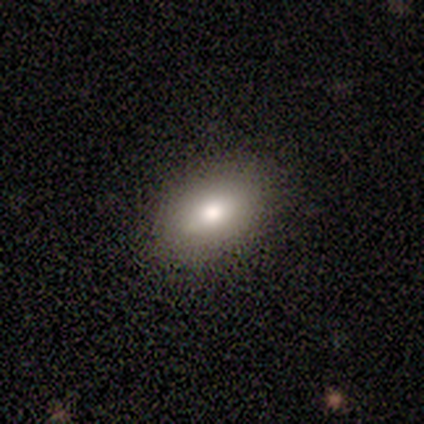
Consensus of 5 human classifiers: Overall: smooth (80%). How rounded: in between (100%). Merging: none (100%).